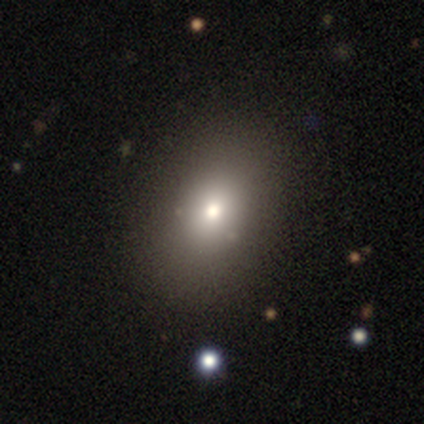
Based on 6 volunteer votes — smooth 83%, star or artifact 17%, featured or disk 0%. Down the decision tree: how rounded — in between (60%); merging — none (80%).